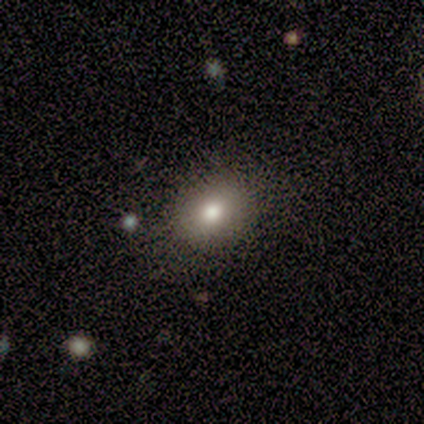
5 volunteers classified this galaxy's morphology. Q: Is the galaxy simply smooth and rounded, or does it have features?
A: smooth — 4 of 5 (80%).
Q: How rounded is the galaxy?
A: in between — 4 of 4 (100%).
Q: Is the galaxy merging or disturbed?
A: none — 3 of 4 (75%).